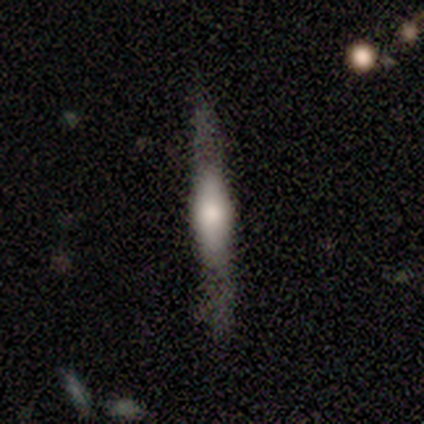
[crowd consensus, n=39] smooth-or-featured: featured or disk: 49% | smooth: 44% | star or artifact: 8%
  disk-edge-on: yes: 95% | no: 5%
    edge-on-bulge: rounded: 61% | boxy: 22% | none: 17%
  merging: none: 56% | minor disturbance: 25% | major disturbance: 19% | merger: 0%